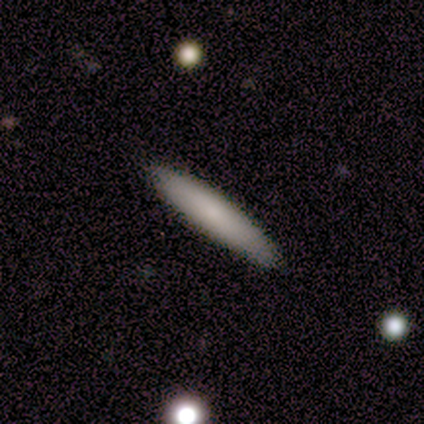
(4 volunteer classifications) Smooth or featured? 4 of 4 (100%) said smooth. How rounded? 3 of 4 (75%) said cigar-shaped. Merging? 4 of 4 (100%) said none.